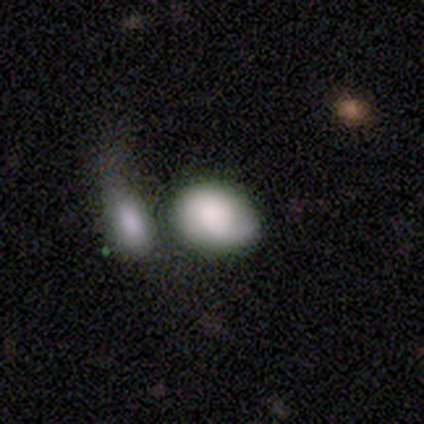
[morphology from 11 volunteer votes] Overall: smooth (82%). How rounded: in between (89%). Merging: merger (45%; none 27%).